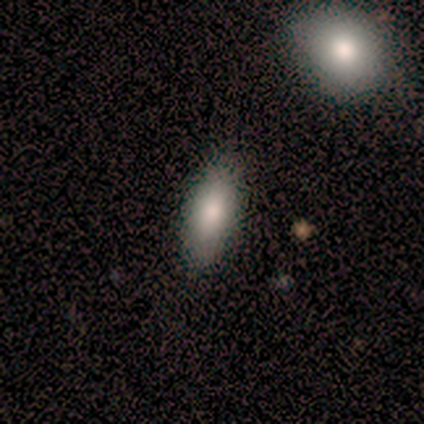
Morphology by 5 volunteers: Overall: smooth (80%). How rounded: in between (75%). Merging: none (100%).